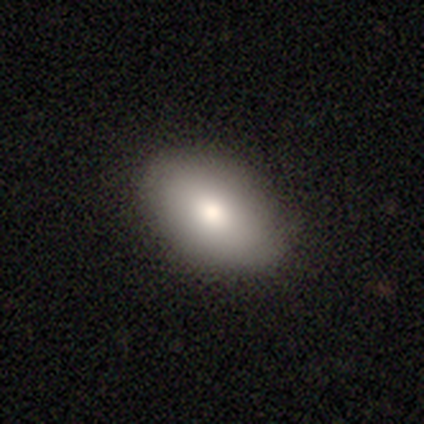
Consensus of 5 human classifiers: This appears to be a smooth galaxy with no disk features (100%) that is in between round and cigar-shaped (100%). Merging: none (60%).